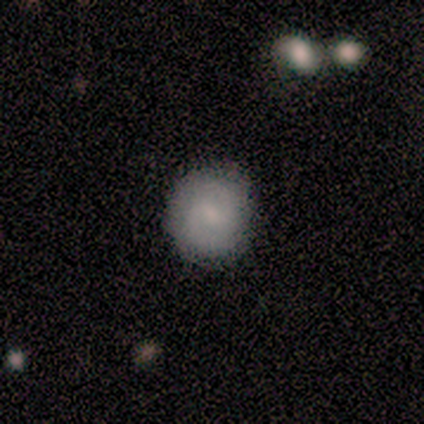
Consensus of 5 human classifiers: Overall: smooth (60%; featured or disk 40%). How rounded: round (100%). Merging: none (100%).